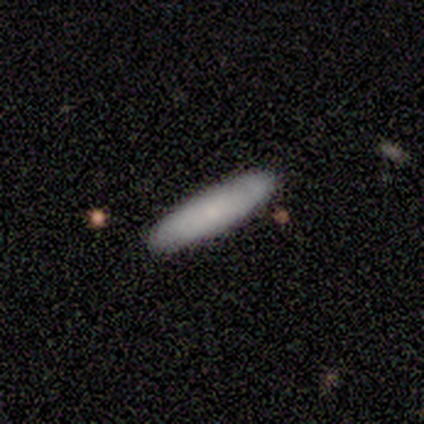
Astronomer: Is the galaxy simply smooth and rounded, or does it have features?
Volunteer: smooth — 100%.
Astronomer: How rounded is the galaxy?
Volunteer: cigar-shaped — 100%.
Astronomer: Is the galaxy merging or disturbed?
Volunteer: none — 100%.